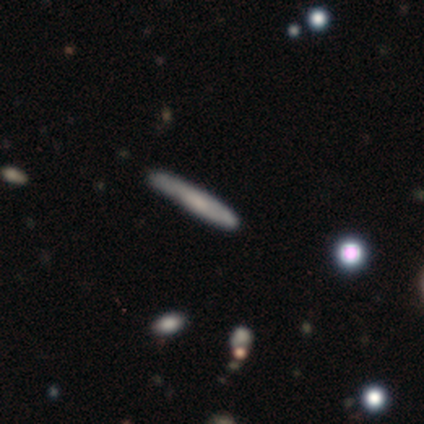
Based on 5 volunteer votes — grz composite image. It shows a smooth galaxy with no disk features (40%, tied with featured or disk) that is cigar-shaped (100%). Merging: none (100%).